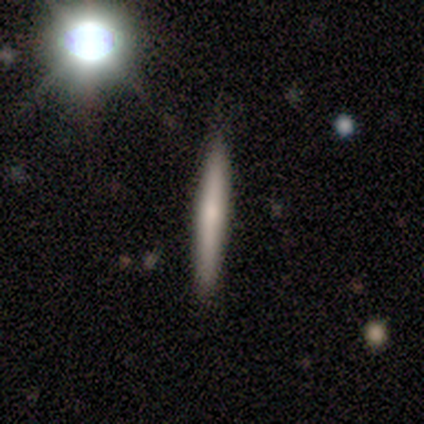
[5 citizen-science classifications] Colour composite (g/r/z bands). It shows a smooth galaxy with no disk features (40%, tied with featured or disk) that is cigar-shaped (100%). Merging: none (75%).